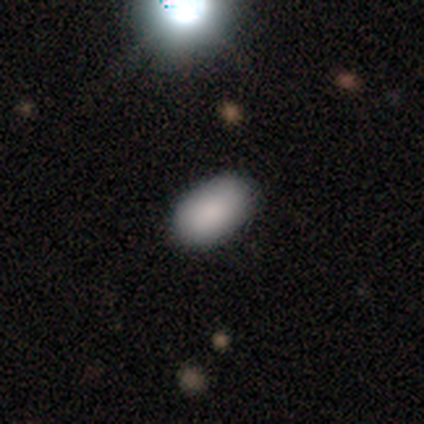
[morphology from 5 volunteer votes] Q: Smooth or featured?
A: smooth (100%)
Q: How rounded?
A: in between (100%)
Q: Merging?
A: none (60%); runner-up: minor disturbance (20%)